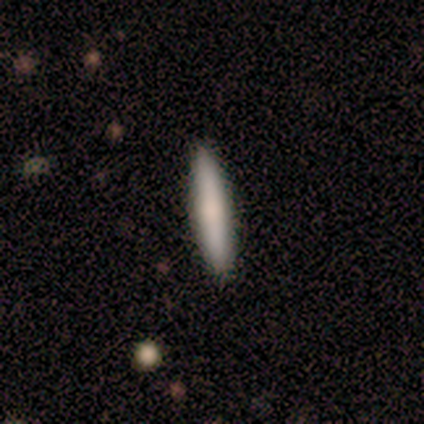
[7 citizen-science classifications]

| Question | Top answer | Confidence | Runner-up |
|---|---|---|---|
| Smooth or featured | smooth | 86% | featured or disk (14%) |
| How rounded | cigar-shaped | 83% | in between (17%) |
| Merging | none | 100% | — |